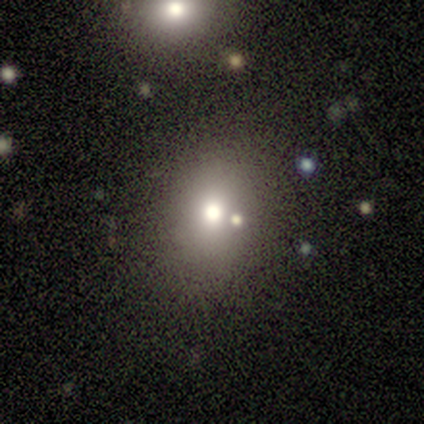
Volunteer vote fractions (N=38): smooth_or_featured: smooth (p=0.53) [alt: featured or disk p=0.24]
how_rounded: round (p=0.70) [alt: in between p=0.30]
merging: none (p=0.79) [alt: merger p=0.10]